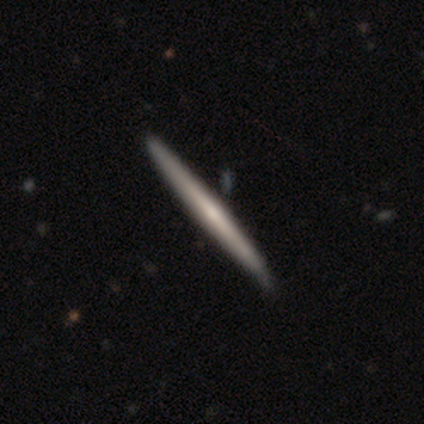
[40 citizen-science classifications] Smooth or featured? featured or disk (70%)
Edge-on disk? yes (96%)
Edge-on bulge? none (81%)
Merging? none (58%)